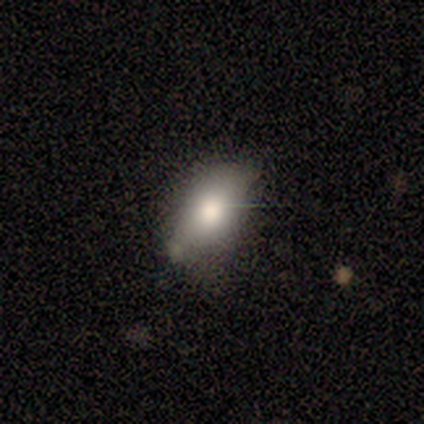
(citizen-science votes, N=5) Q: Smooth or featured?
A: featured or disk (60%); runner-up: smooth (40%)
Q: Edge-on disk?
A: no (100%)
Q: Bar?
A: no (100%)
Q: Spiral arms?
A: no (100%)
Q: Bulge size?
A: large (67%); runner-up: none (33%)
Q: Merging?
A: none (60%); runner-up: merger (40%)